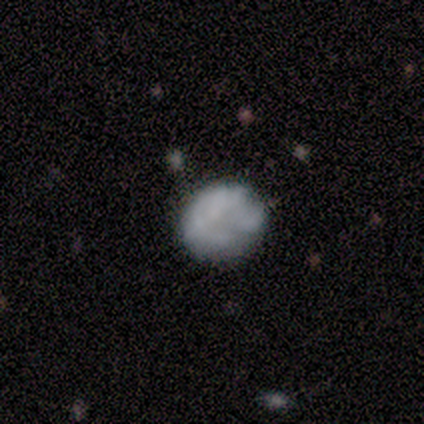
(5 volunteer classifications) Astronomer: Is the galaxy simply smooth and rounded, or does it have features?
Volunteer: featured or disk — 60% (runner-up: smooth, 40%).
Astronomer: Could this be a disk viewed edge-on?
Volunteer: no — 100%.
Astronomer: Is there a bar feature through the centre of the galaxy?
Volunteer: no — 100%.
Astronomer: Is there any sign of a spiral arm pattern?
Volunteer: no — 100%.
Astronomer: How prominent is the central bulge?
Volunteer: none — 100%.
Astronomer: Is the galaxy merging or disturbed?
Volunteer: none — 60%.